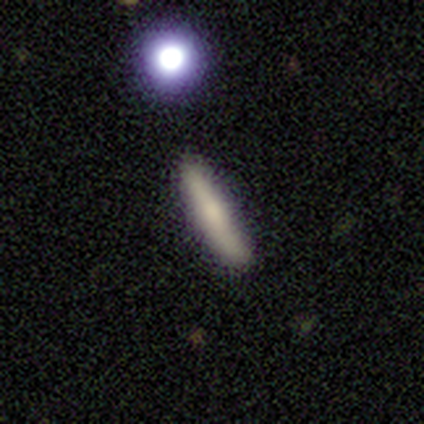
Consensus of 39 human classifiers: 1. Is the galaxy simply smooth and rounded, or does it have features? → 62% smooth, 31% featured or disk, 8% star or artifact.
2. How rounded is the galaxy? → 100% cigar-shaped, 0% round, 0% in between.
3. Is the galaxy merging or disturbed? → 89% none, 8% minor disturbance, 3% merger, 0% major disturbance.